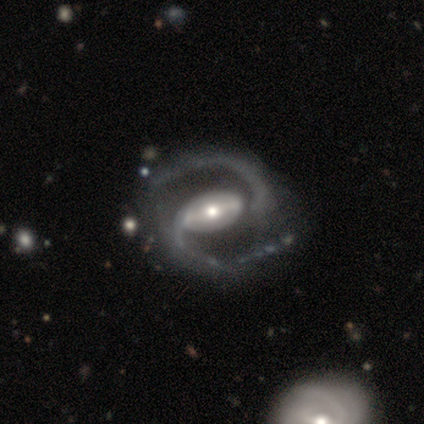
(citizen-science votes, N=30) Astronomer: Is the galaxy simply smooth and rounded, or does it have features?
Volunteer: featured or disk — 93%.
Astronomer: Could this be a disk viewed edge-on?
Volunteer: no — 100%.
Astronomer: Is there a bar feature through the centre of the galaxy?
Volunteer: strong — 61%.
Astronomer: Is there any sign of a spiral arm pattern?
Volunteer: yes — 100%.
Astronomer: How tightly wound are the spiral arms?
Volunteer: medium — 64%.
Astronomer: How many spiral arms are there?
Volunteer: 2 — 100%.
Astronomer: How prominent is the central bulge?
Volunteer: moderate — 54%.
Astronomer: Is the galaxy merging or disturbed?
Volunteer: none — 68%.